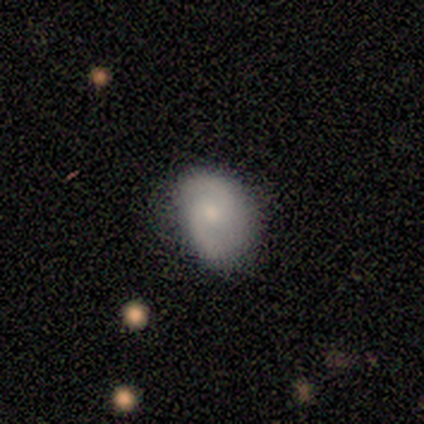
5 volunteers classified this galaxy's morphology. type=featured or disk (60%); edge-on=no (100%); bar=no (67%); spiral arms=yes (100%); winding=loose (67%); arm count=2 (100%); bulge=small (67%); merging=none (40%, tied with minor disturbance).